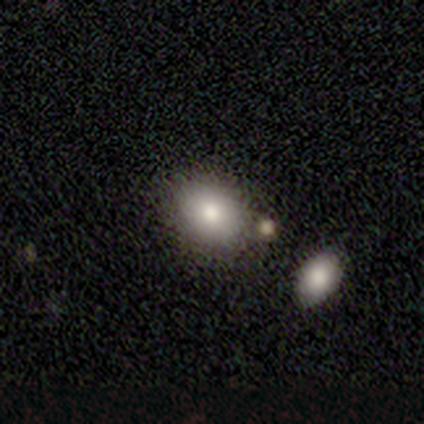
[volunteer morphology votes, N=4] Volunteers were most divided on "how rounded": round: 67%, in between: 33%, cigar-shaped: 0%. More confident: merging — none (100%); smooth or featured — smooth (75%).